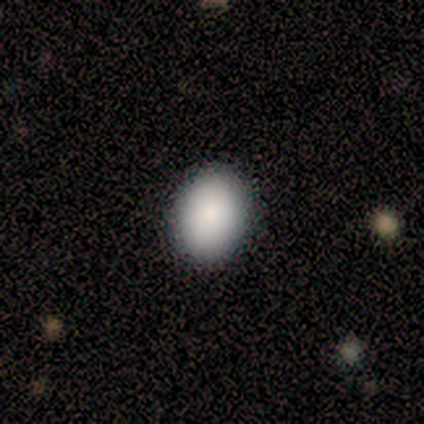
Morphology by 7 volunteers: Q: Smooth or featured?
A: smooth (100%)
Q: How rounded?
A: in between (71%); runner-up: round (29%)
Q: Merging?
A: none (100%)